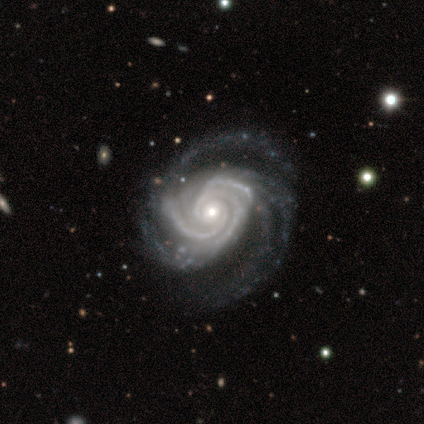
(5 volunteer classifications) smooth_or_featured: featured or disk (p=0.80) [alt: star or artifact p=0.20]
disk_edge_on: no (p=1.00)
bar: weak (p=0.50) [tied with: no p=0.50]
has_spiral_arms: yes (p=1.00)
spiral_winding: tight (p=0.75) [alt: medium p=0.25]
spiral_arm_count: 1 (p=0.25) [tied with: 2 p=0.25, 3 p=0.25, can't tell p=0.25]
bulge_size: moderate (p=0.75) [alt: small p=0.25]
merging: major disturbance (p=0.50) [alt: none p=0.25]